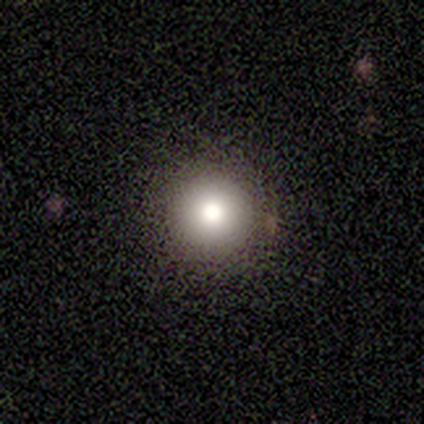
smooth-or-featured: smooth: 75% | star or artifact: 25% | featured or disk: 0%
  how-rounded: round: 100% | in between: 0% | cigar-shaped: 0%
  merging: none: 100% | minor disturbance: 0% | major disturbance: 0% | merger: 0%